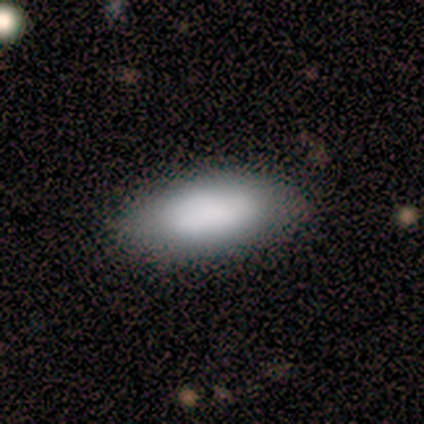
This is likely a smooth galaxy (75%). How rounded: clearly in between (100%). Merging: clearly none (86%).